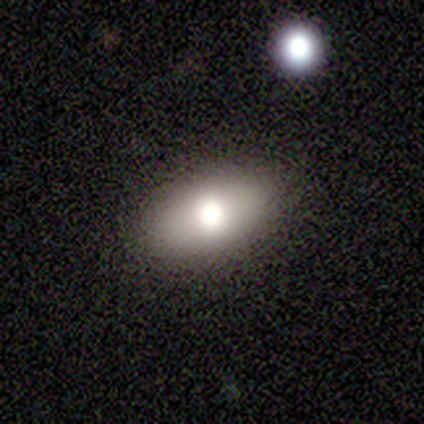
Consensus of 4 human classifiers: Morphology: type=smooth (75%); roundness=in between (100%); merging=none (100%).